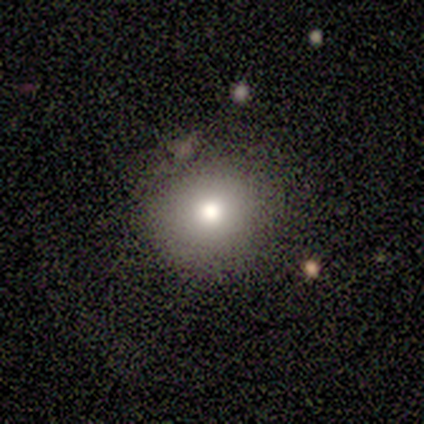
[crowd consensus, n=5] This appears to be a smooth galaxy with no disk features (60%) that is round (100%). Merging: none (100%).